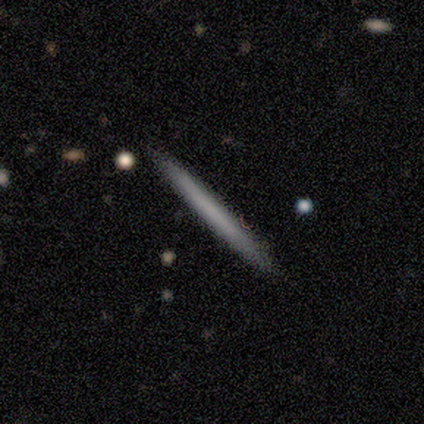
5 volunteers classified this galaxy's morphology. This is clearly a featured or disk galaxy (80%). It is likely viewed edge-on (75%). Edge-on bulge: clearly none (100%). Merging: clearly none (80%).